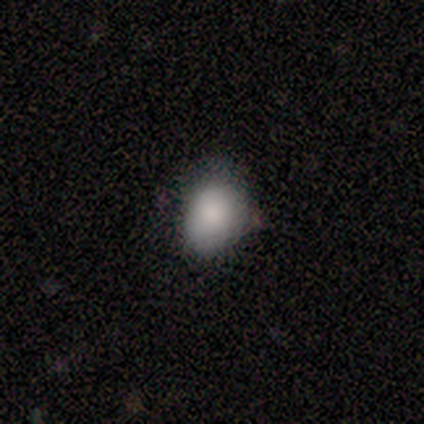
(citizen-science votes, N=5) This appears to be a smooth galaxy with no disk features (100%) that is in between round and cigar-shaped (60%). Merging: none (80%).